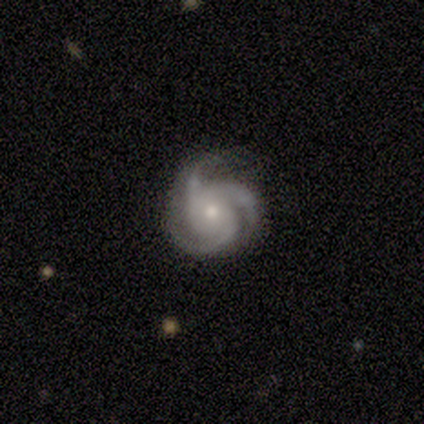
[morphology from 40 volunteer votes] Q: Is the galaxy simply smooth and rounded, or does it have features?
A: featured or disk — 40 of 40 (100%).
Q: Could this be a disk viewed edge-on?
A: no — 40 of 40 (100%).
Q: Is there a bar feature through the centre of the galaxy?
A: no — 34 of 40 (85%).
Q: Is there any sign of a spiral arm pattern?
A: yes — 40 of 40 (100%).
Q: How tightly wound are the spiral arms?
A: tight — 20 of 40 (50%, tied with medium).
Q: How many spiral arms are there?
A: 3 — 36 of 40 (90%).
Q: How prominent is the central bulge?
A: moderate — 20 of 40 (50%).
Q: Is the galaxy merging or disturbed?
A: none — 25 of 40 (62%).